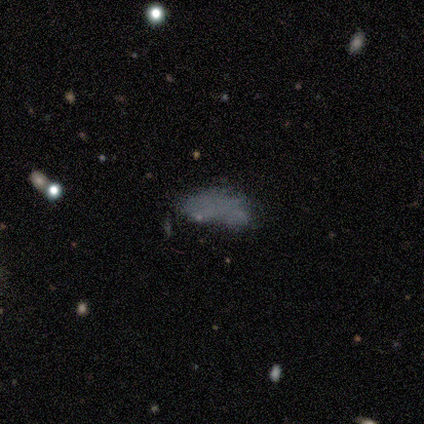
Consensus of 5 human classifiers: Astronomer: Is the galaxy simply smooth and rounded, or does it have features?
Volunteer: smooth — 40%, tied with star or artifact at 40%.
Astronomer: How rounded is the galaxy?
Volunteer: in between — 50%, tied with cigar-shaped at 50%.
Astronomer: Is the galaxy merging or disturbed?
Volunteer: merger — 67%.